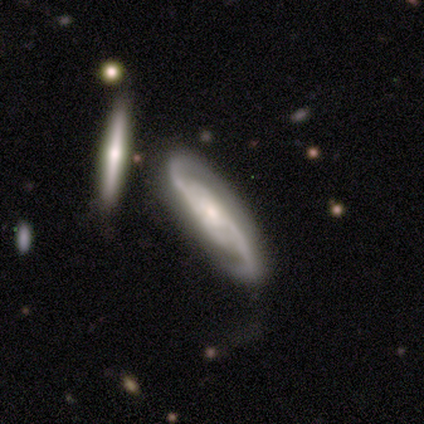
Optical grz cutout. It shows a featured or disk galaxy (100%) with a weak bar (50%, tied with no), 2 (100%) medium (50%, tied with loose) spiral arms (100%) and a moderate central bulge (50%). Merging: none (100%).